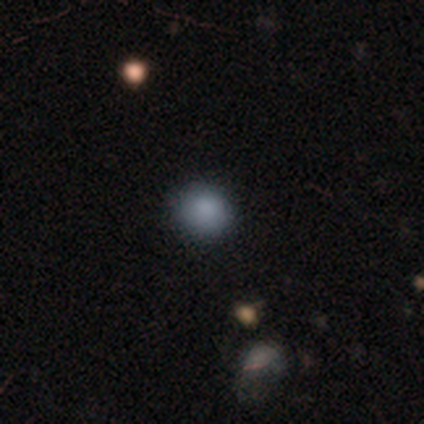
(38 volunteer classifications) Smooth or featured: smooth — 79% (star or artifact — 18%)
How rounded: round — 83% (in between — 17%)
Merging: none — 84% (minor disturbance — 13%)